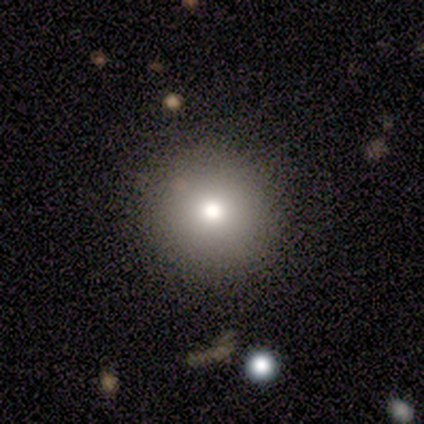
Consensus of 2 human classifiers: Consensus on every question: smooth or featured — smooth (100%); how rounded — round (100%); merging — none (100%).